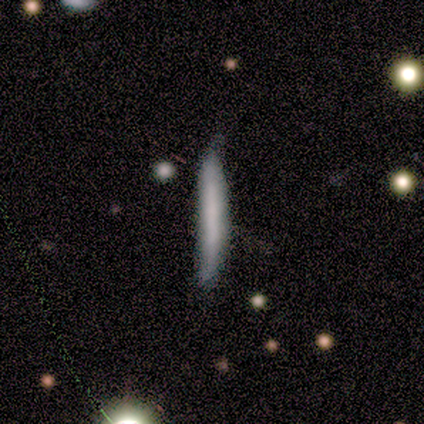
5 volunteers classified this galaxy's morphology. This appears to be a smooth galaxy with no disk features (80%) that is cigar-shaped (100%). Merging: none (100%).